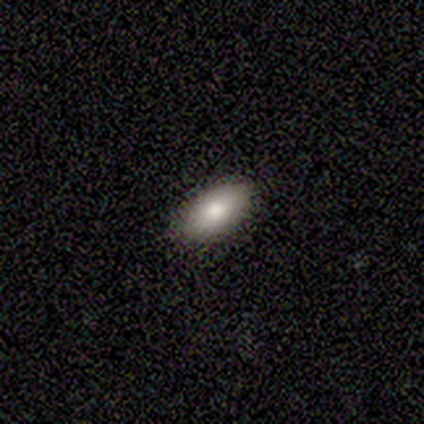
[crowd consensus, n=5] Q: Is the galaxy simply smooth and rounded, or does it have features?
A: smooth — 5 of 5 (100%).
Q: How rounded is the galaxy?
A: in between — 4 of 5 (80%).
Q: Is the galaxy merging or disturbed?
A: none — 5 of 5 (100%).